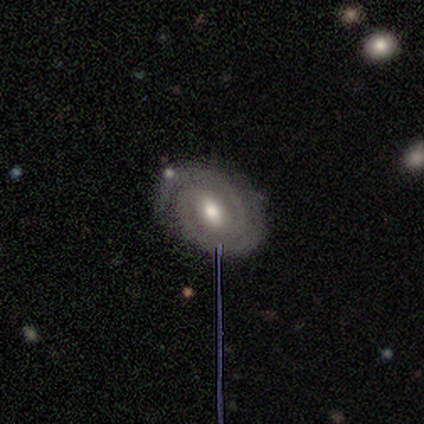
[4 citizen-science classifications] Smooth or featured?
  - featured or disk: 100% *
  - smooth: 0%
  - star or artifact: 0%
Edge-on disk?
  - no: 100% *
  - yes: 0%
Bar?
  - weak: 75% *
  - no: 25%
  - strong: 0%
Spiral arms?
  - yes: 100% *
  - no: 0%
Spiral winding?
  - tight: 75% *
  - medium: 25%
  - loose: 0%
Spiral arm count?
  - 2: 100% *
  - 1: 0%
  - 3: 0%
  - 4: 0%
  - more than 4: 0%
  - can't tell: 0%
Bulge size?
  - moderate: 100% *
  - dominant: 0%
  - large: 0%
  - small: 0%
  - none: 0%
Merging?
  - none: 100% *
  - minor disturbance: 0%
  - major disturbance: 0%
  - merger: 0%